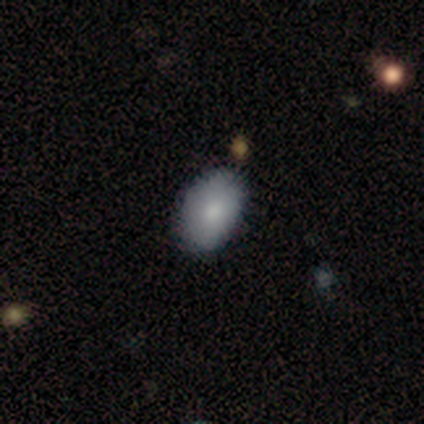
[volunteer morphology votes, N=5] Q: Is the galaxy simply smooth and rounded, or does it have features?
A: smooth — 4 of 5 (80%).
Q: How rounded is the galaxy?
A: in between — 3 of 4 (75%).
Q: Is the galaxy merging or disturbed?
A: none — 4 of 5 (80%).